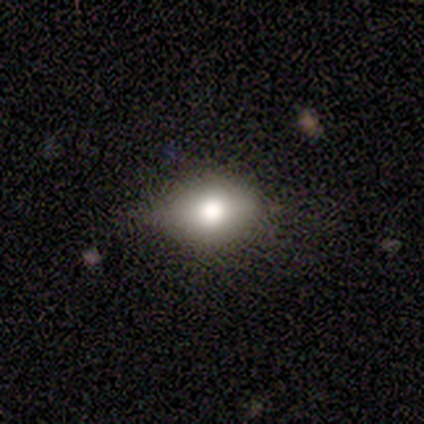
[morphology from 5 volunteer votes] A smooth galaxy with no disk features (60%) that is in between round and cigar-shaped (100%). Merging: none (50%, tied with minor disturbance).